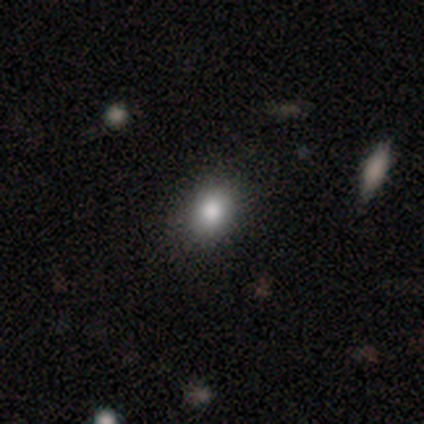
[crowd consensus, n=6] A smooth galaxy with no disk features (67%) that is round (50%, tied with in between). Merging: none (100%).